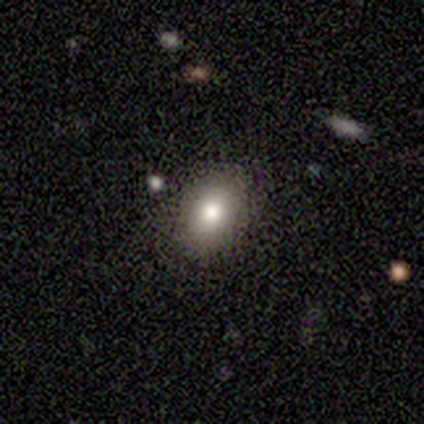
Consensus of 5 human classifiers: Morphology: type=smooth (60%); roundness=in between (67%); merging=none (100%).